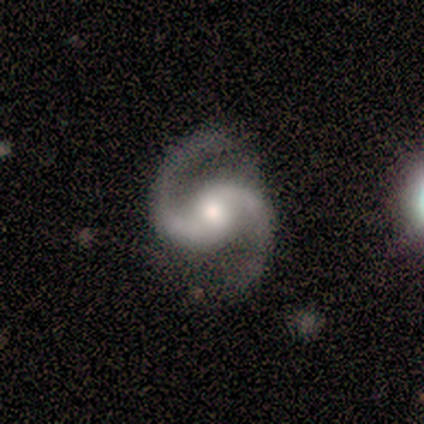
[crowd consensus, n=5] smooth-or-featured: featured or disk: 100% | smooth: 0% | star or artifact: 0%
  disk-edge-on: no: 100% | yes: 0%
    bar: no: 80% | weak: 20% | strong: 0%
    has-spiral-arms: yes: 100% | no: 0%
      spiral-winding: medium: 60% | tight: 20% | loose: 20%
      spiral-arm-count: 2: 100% | 1: 0% | 3: 0% | 4: 0% | more than 4: 0% | can't tell: 0%
    bulge-size: moderate: 100% | dominant: 0% | large: 0% | small: 0% | none: 0%
  merging: none: 100% | minor disturbance: 0% | major disturbance: 0% | merger: 0%